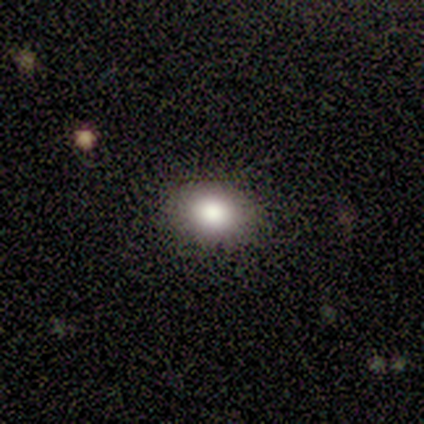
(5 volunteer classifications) This is clearly a smooth galaxy (100%). How rounded: likely in between (60%). Merging: likely none (60%).